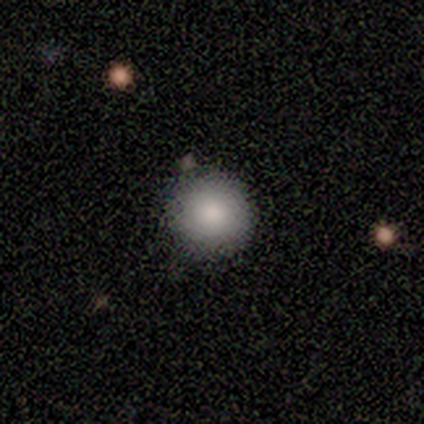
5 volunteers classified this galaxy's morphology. smooth_or_featured: smooth (p=1.00)
how_rounded: round (p=1.00)
merging: none (p=1.00)